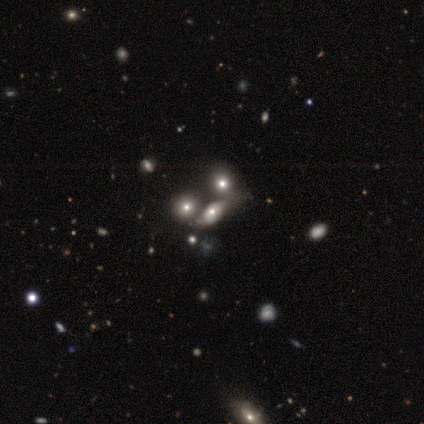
Smooth or featured?
  - smooth: 40% * (tied)
  - featured or disk: 40% * (tied)
  - star or artifact: 20%
How rounded?
  - in between: 100% *
  - round: 0%
  - cigar-shaped: 0%
Merging?
  - none: 75% *
  - major disturbance: 25%
  - minor disturbance: 0%
  - merger: 0%